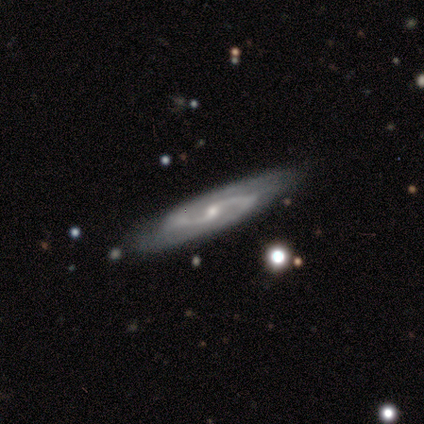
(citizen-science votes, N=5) Smooth or featured? featured or disk (100%)
Edge-on disk? no (100%)
Bar? weak (60%)
Spiral arms? yes (100%)
Spiral winding? loose (60%)
Spiral arm count? 2 (100%)
Bulge size? small (80%)
Merging? none (100%)